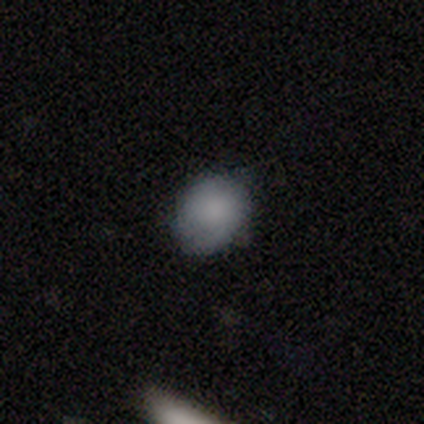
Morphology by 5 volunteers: smooth 100%, featured or disk 0%, star or artifact 0%. Down the decision tree: how rounded — in between (60%); merging — none (60%).